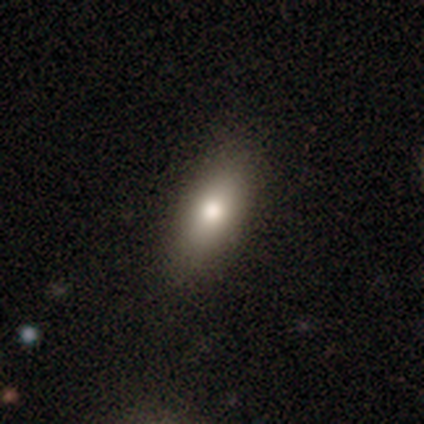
Overall: smooth (71%). How rounded: in between (78%). Merging: none (84%).